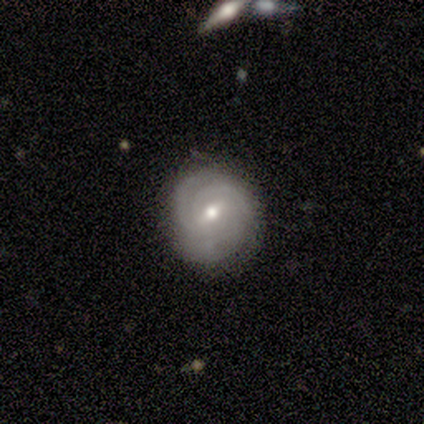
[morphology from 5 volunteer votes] Overall: featured or disk (100%). Edge-on disk: no (100%). Bar: weak (60%; strong 20%). Spiral arms: yes (100%). Spiral arm count: 3 (40%, tied with can't tell). Spiral winding: tight (80%). Bulge size: moderate (60%; small 40%). Merging: none (100%).